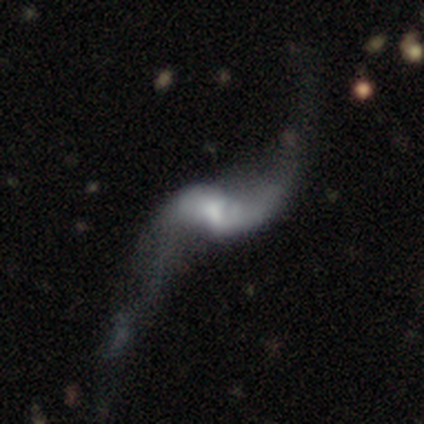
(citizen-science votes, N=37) smooth-or-featured: featured or disk: 92% | smooth: 5% | star or artifact: 3%
  disk-edge-on: no: 97% | yes: 3%
    bar: weak: 55% | no: 30% | strong: 15%
    has-spiral-arms: yes: 94% | no: 6%
      spiral-winding: loose: 94% | medium: 6% | tight: 0%
      spiral-arm-count: 2: 100% | 1: 0% | 3: 0% | 4: 0% | more than 4: 0% | can't tell: 0%
    bulge-size: small: 39% | moderate: 24% | large: 21% | none: 15% | dominant: 0%
  merging: none: 42% | major disturbance: 36% | minor disturbance: 14% | merger: 8%